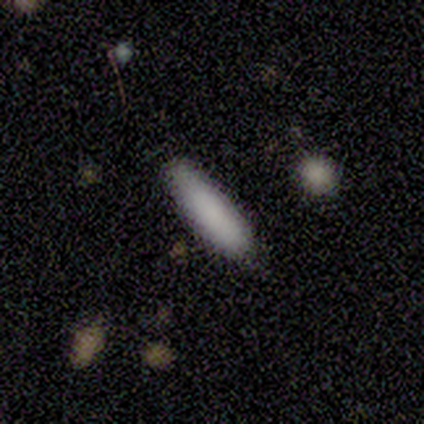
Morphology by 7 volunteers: A smooth galaxy with no disk features (86%) that is in between round and cigar-shaped (50%, tied with cigar-shaped). Merging: none (83%).